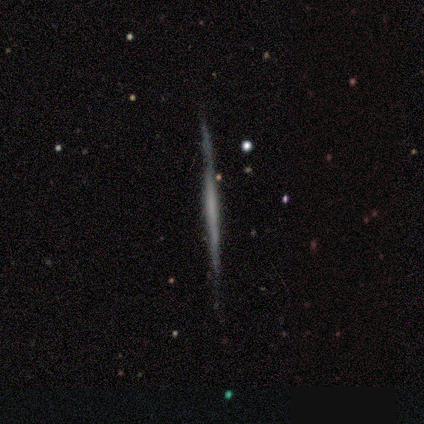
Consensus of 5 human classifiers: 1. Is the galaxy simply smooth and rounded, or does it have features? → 80% featured or disk, 20% smooth, 0% star or artifact.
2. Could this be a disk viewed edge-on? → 100% yes, 0% no.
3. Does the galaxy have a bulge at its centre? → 100% none, 0% boxy, 0% rounded.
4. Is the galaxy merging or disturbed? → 100% none, 0% minor disturbance, 0% major disturbance, 0% merger.